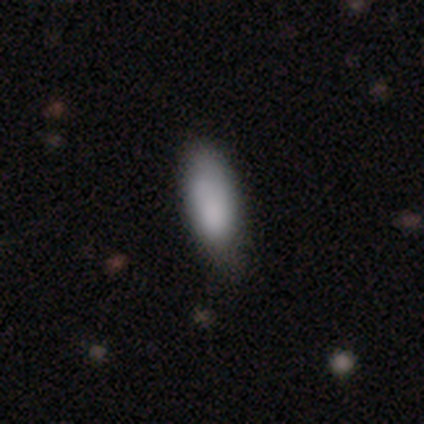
Q: Smooth or featured?
A: smooth (100%)
Q: How rounded?
A: in between (60%); runner-up: cigar-shaped (40%)
Q: Merging?
A: none (60%); runner-up: minor disturbance (40%)